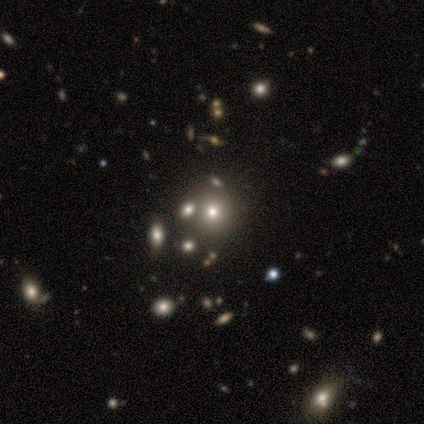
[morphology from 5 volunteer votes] This is marginally a smooth galaxy (40%, tied with star or artifact). How rounded: possibly round (50%, tied with in between). Merging: clearly none (100%).